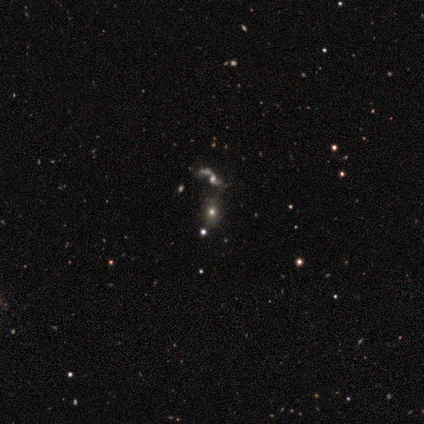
smooth_or_featured: smooth (p=0.60) [alt: featured or disk p=0.20]
how_rounded: round (p=0.67) [alt: in between p=0.33]
merging: none (p=0.50) [alt: minor disturbance p=0.25]